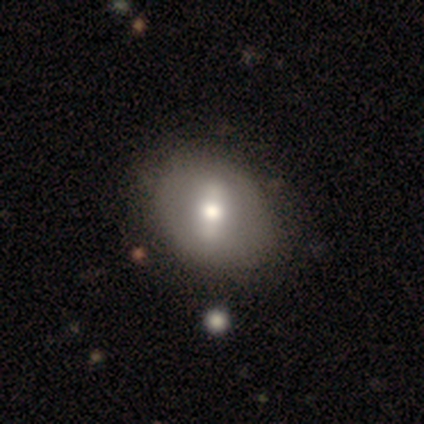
This is possibly a featured or disk galaxy (57%). It is clearly not viewed edge-on (95%). Bar: possibly strong (50%). Spiral arm pattern: clearly no (95%). Central bulge: likely moderate (75%). Merging: likely none (68%).